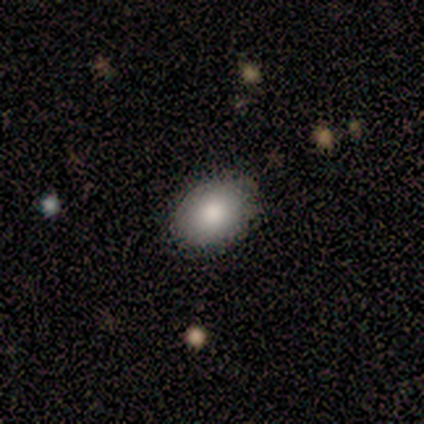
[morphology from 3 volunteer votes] smooth 100%, featured or disk 0%, star or artifact 0%. Down the decision tree: how rounded — in between (100%); merging — none (100%).